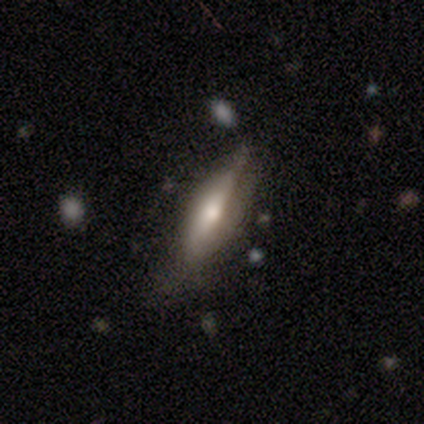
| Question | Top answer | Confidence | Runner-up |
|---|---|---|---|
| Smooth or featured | featured or disk | 62% | smooth (31%) |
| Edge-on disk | yes | 92% | no (8%) |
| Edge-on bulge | rounded | 95% | none (5%) |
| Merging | none | 64% | minor disturbance (25%) |